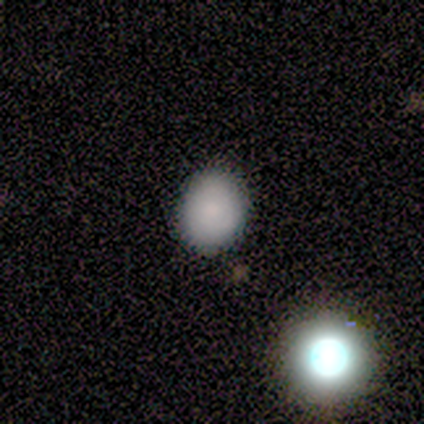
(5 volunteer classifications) smooth-or-featured: smooth: 60% | star or artifact: 40% | featured or disk: 0%
  how-rounded: round: 67% | in between: 33% | cigar-shaped: 0%
  merging: none: 100% | minor disturbance: 0% | major disturbance: 0% | merger: 0%